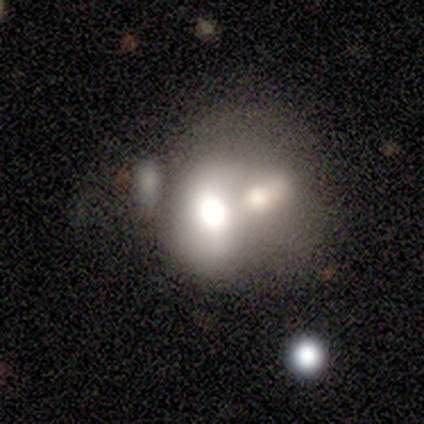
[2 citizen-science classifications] This is clearly a smooth galaxy (100%). How rounded: clearly in between (100%). Merging: possibly minor disturbance (50%, tied with merger).